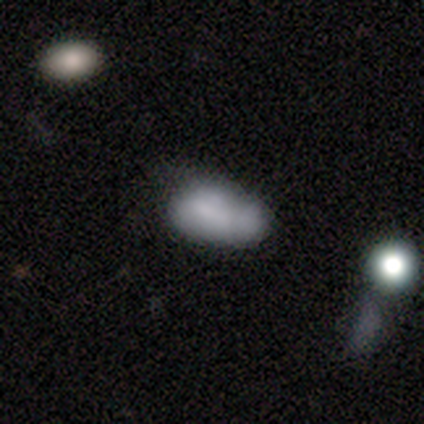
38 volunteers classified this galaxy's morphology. Overall: smooth (61%; featured or disk 37%). How rounded: in between (91%). Merging: minor disturbance (46%; none 19%).